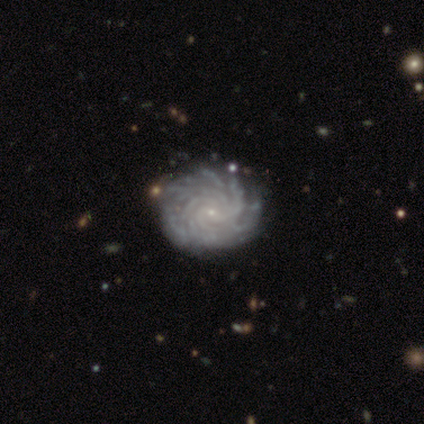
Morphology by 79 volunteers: This appears to be a featured or disk galaxy (94%) with no bar (78%), more than 4 (74%) tight (86%) spiral arms (99%) and a small central bulge (95%). Merging: none (39%).